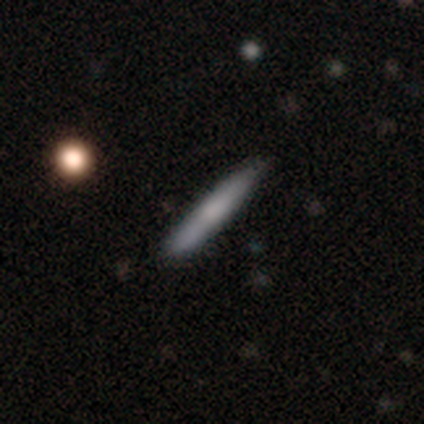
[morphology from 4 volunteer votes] A smooth galaxy with no disk features (50%, tied with featured or disk) that is cigar-shaped (100%).

Vote fractions:
- Smooth or featured? smooth: 50% (tied) / featured or disk: 50% (tied) / star or artifact: 0%
- How rounded? cigar-shaped: 100% / round: 0% / in between: 0%
- Merging? none: 75% / minor disturbance: 25% / major disturbance: 0% / merger: 0%